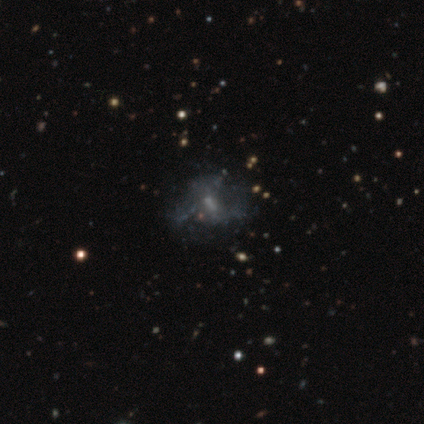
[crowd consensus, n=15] This appears to be a featured or disk galaxy (47%) with no bar (86%), no spiral arms (100%) and a small central bulge (57%). Merging: none (69%).